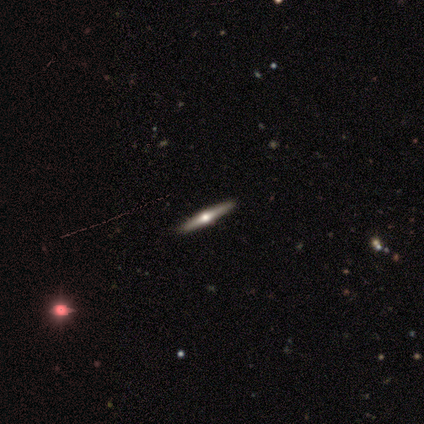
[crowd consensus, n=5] A featured or disk galaxy (100%) viewed edge-on (100%) with a rounded central bulge (100%).

Vote fractions:
- Smooth or featured? featured or disk: 100% / smooth: 0% / star or artifact: 0%
- Edge-on disk? yes: 100% / no: 0%
- Edge-on bulge? rounded: 100% / boxy: 0% / none: 0%
- Merging? none: 100% / minor disturbance: 0% / major disturbance: 0% / merger: 0%